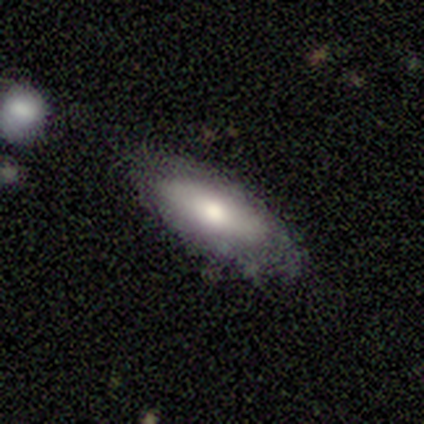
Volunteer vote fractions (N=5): Overall: smooth (80%). How rounded: in between (50%, tied with cigar-shaped). Merging: none (100%).